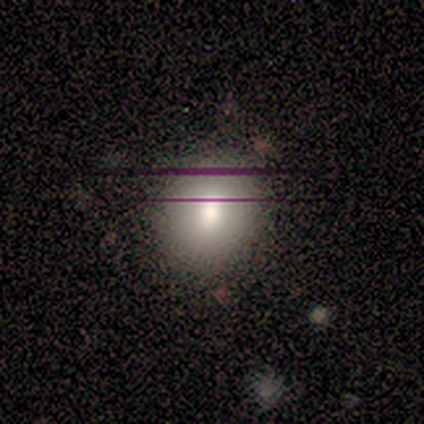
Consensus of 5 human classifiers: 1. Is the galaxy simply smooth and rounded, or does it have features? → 60% smooth, 20% featured or disk, 20% star or artifact.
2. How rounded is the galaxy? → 100% round, 0% in between, 0% cigar-shaped.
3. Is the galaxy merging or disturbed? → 100% none, 0% minor disturbance, 0% major disturbance, 0% merger.